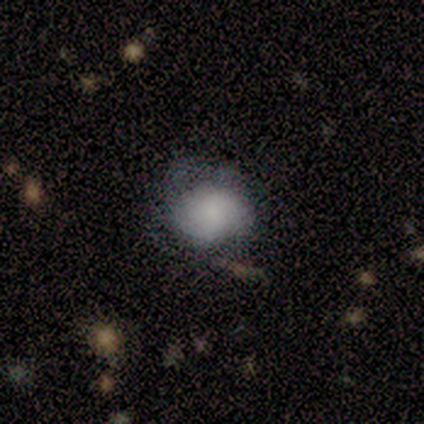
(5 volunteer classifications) smooth-or-featured: featured or disk: 60% | smooth: 40% | star or artifact: 0%
  disk-edge-on: no: 100% | yes: 0%
    bar: no: 100% | strong: 0% | weak: 0%
    has-spiral-arms: yes: 67% | no: 33%
      spiral-winding: tight: 100% | medium: 0% | loose: 0%
      spiral-arm-count: 4: 50% (tied) | can't tell: 50% (tied) | 1: 0% | 2: 0% | 3: 0% | more than 4: 0%
    bulge-size: dominant: 33% (tied) | large: 33% (tied) | small: 33% (tied) | moderate: 0% | none: 0%
  merging: none: 60% | minor disturbance: 40% | major disturbance: 0% | merger: 0%